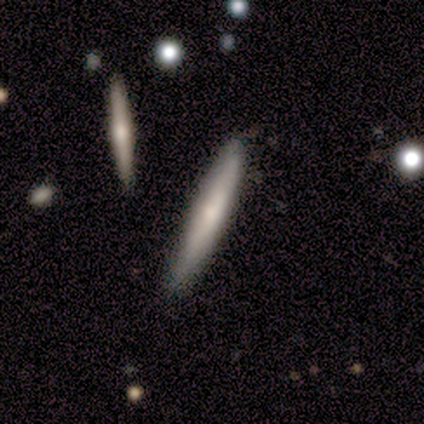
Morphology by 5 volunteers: type=smooth (80%); roundness=cigar-shaped (100%); merging=none (100%).